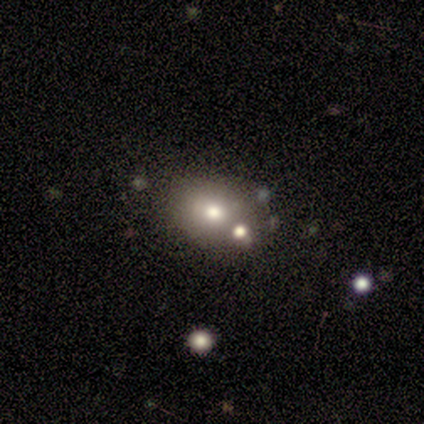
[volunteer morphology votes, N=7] Smooth or featured? 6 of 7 (86%) said smooth. How rounded? 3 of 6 (50%, tied with in between) said round. Merging? 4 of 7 (57%) said none.